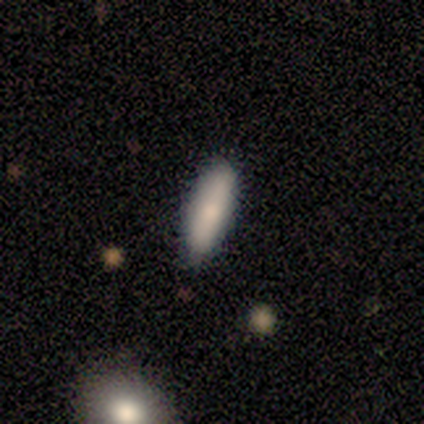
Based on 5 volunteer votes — This is marginally a featured or disk galaxy (40%, tied with star or artifact). It is possibly viewed edge-on (50%, tied with no). Edge-on bulge: clearly rounded (100%). Merging: likely none (67%).